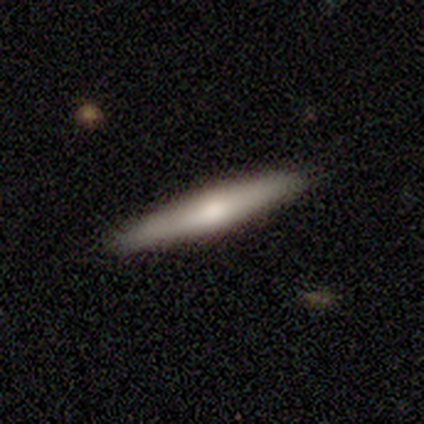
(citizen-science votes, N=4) Smooth or featured? smooth (75%)
How rounded? cigar-shaped (100%)
Merging? none (75%)